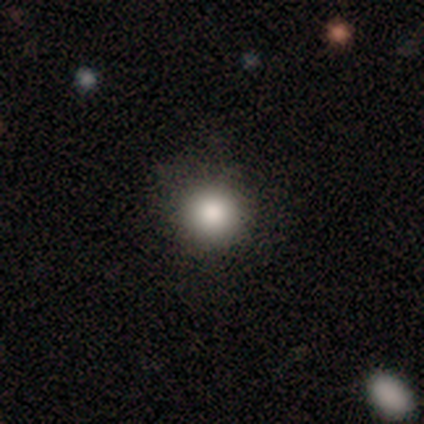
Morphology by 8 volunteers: Smooth or featured?
  - smooth: 75% *
  - featured or disk: 12%
  - star or artifact: 12%
How rounded?
  - round: 83% *
  - in between: 17%
  - cigar-shaped: 0%
Merging?
  - none: 100% *
  - minor disturbance: 0%
  - major disturbance: 0%
  - merger: 0%